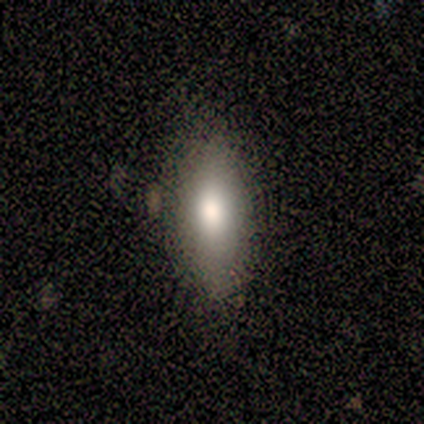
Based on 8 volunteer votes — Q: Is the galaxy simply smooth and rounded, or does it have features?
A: smooth — 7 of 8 (88%).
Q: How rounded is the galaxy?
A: in between — 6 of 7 (86%).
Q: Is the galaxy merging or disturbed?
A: none — 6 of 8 (75%).